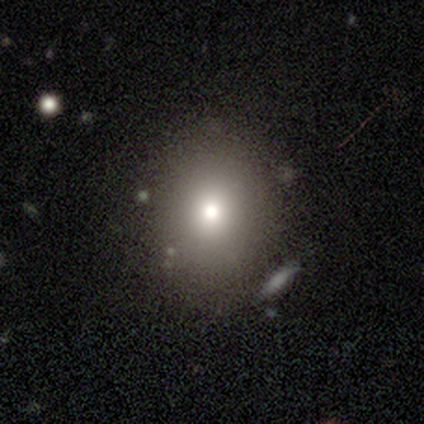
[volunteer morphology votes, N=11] A smooth galaxy with no disk features (64%) that is round (57%). Merging: none (88%).